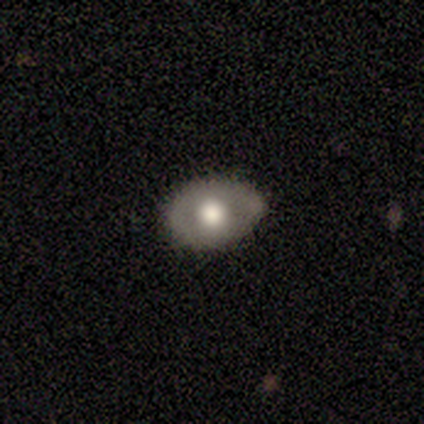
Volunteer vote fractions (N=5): A smooth galaxy with no disk features (60%) that is in between round and cigar-shaped (100%). Merging: none (60%).